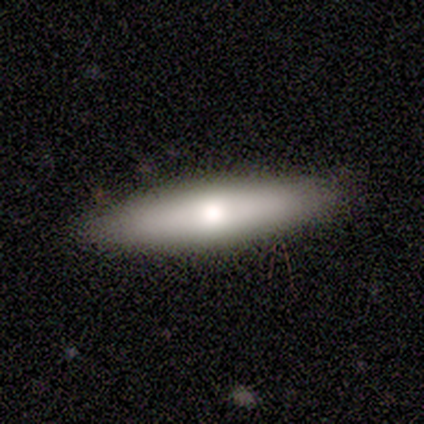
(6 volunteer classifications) Smooth or featured?
  - smooth: 50% * (tied)
  - featured or disk: 50% * (tied)
  - star or artifact: 0%
How rounded?
  - cigar-shaped: 67% *
  - in between: 33%
  - round: 0%
Merging?
  - none: 100% *
  - minor disturbance: 0%
  - major disturbance: 0%
  - merger: 0%